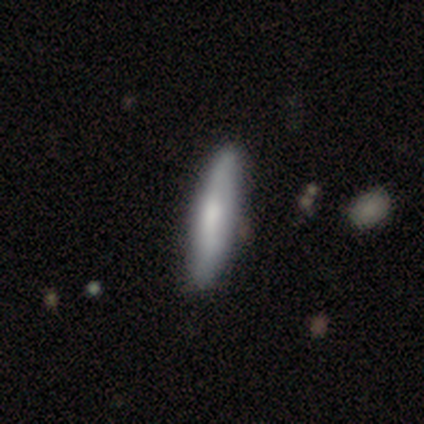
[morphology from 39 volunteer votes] Smooth or featured?
  - smooth: 67% *
  - featured or disk: 26%
  - star or artifact: 8%
How rounded?
  - cigar-shaped: 92% *
  - in between: 8%
  - round: 0%
Merging?
  - none: 67% *
  - minor disturbance: 6%
  - merger: 3%
  - major disturbance: 0%